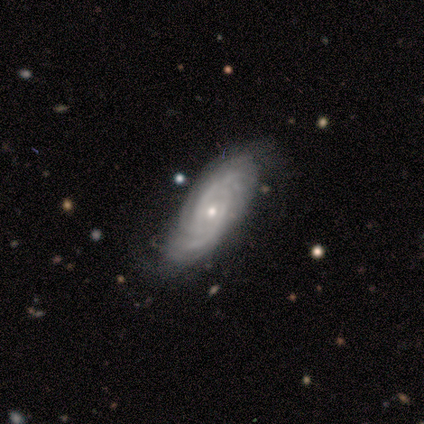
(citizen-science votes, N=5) Smooth or featured?
  - featured or disk: 100% *
  - smooth: 0%
  - star or artifact: 0%
Edge-on disk?
  - no: 100% *
  - yes: 0%
Bar?
  - no: 100% *
  - strong: 0%
  - weak: 0%
Spiral arms?
  - yes: 100% *
  - no: 0%
Spiral winding?
  - tight: 100% *
  - medium: 0%
  - loose: 0%
Spiral arm count?
  - 3: 40% * (tied)
  - can't tell: 40% * (tied)
  - 4: 20%
  - 1: 0%
  - 2: 0%
  - more than 4: 0%
Bulge size?
  - moderate: 60% *
  - small: 40%
  - dominant: 0%
  - large: 0%
  - none: 0%
Merging?
  - none: 80% *
  - minor disturbance: 20%
  - major disturbance: 0%
  - merger: 0%